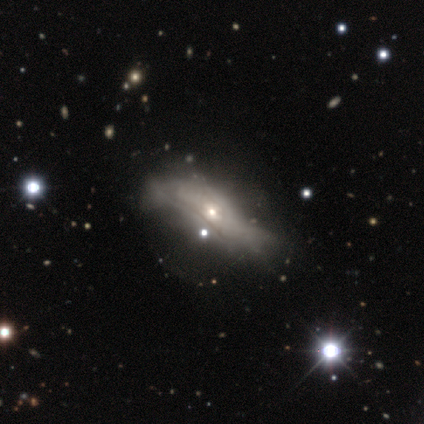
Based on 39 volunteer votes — smooth-or-featured: featured or disk: 67% | smooth: 31% | star or artifact: 3%
  disk-edge-on: no: 85% | yes: 15%
    bar: no: 86% | weak: 14% | strong: 0%
    has-spiral-arms: no: 77% | yes: 23%
    bulge-size: small: 68% | moderate: 32% | dominant: 0% | large: 0% | none: 0%
  merging: major disturbance: 37% | none: 32% | minor disturbance: 26% | merger: 5%